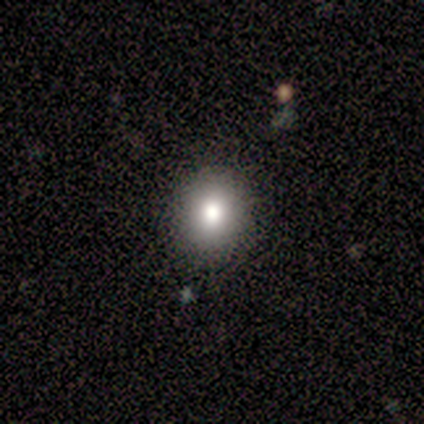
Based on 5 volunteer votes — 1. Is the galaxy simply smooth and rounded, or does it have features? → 80% smooth, 20% star or artifact, 0% featured or disk.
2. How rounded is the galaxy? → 75% in between, 25% round, 0% cigar-shaped.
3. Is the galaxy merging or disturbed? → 75% none, 25% minor disturbance, 0% major disturbance, 0% merger.